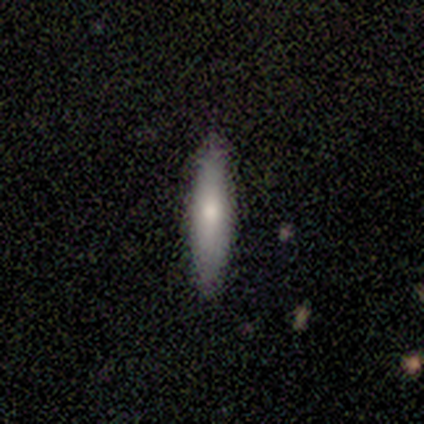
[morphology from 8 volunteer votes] A smooth galaxy with no disk features (62%) that is cigar-shaped (100%). Merging: none (88%).